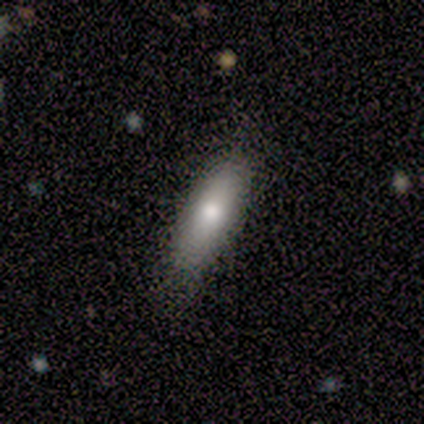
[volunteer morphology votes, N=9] Smooth or featured?
  - smooth: 56% *
  - featured or disk: 44%
  - star or artifact: 0%
How rounded?
  - in between: 60% *
  - cigar-shaped: 40%
  - round: 0%
Merging?
  - none: 78% *
  - minor disturbance: 22%
  - major disturbance: 0%
  - merger: 0%